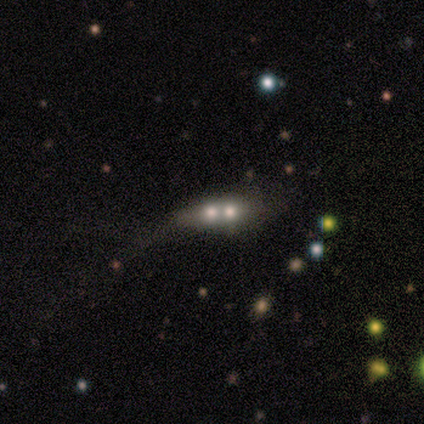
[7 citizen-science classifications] A smooth galaxy with no disk features (43%, tied with featured or disk) that is in between round and cigar-shaped (67%).

Vote fractions:
- Smooth or featured? smooth: 43% (tied) / featured or disk: 43% (tied) / star or artifact: 14%
- How rounded? in between: 67% / cigar-shaped: 33% / round: 0%
- Merging? merger: 100% / none: 0% / minor disturbance: 0% / major disturbance: 0%